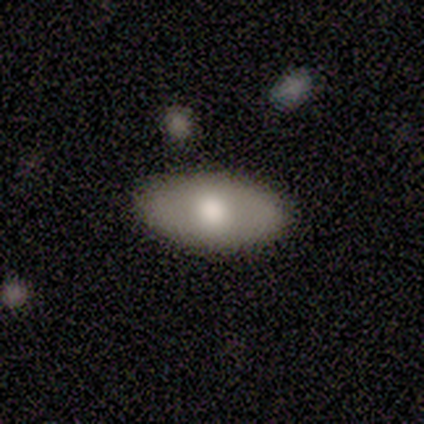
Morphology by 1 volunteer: Consensus on every question: smooth or featured — featured or disk (100%); edge-on disk — yes (100%); edge-on bulge — rounded (100%); merging — none (100%).